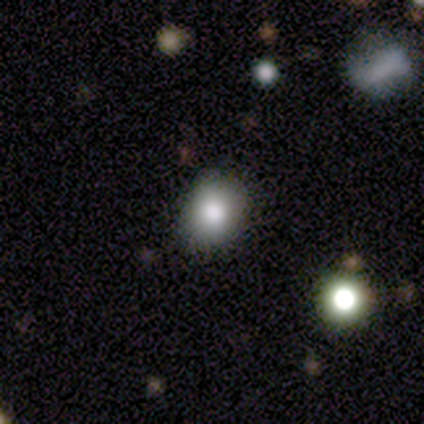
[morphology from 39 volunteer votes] smooth_or_featured: smooth (p=0.69) [alt: star or artifact p=0.21]
how_rounded: round (p=0.56) [alt: in between p=0.44]
merging: none (p=0.81) [alt: minor disturbance p=0.16]